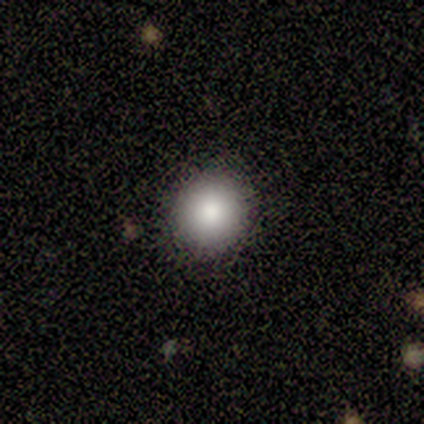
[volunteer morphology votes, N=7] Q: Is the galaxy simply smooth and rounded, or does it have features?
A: smooth — 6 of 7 (86%).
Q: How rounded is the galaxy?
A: round — 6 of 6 (100%).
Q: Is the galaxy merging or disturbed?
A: none — 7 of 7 (100%).